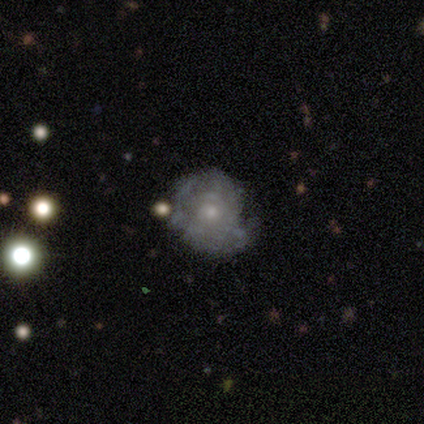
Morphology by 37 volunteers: This appears to be a featured or disk galaxy (78%) with no bar (96%), tight (76%) spiral arms (63%) and a small central bulge (67%). Merging: none (60%).